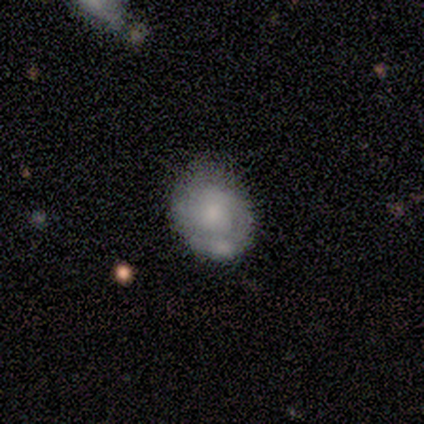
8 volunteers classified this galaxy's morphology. This is possibly a smooth galaxy (50%, tied with featured or disk). How rounded: likely round (75%). Merging: marginally none (38%, tied with merger).